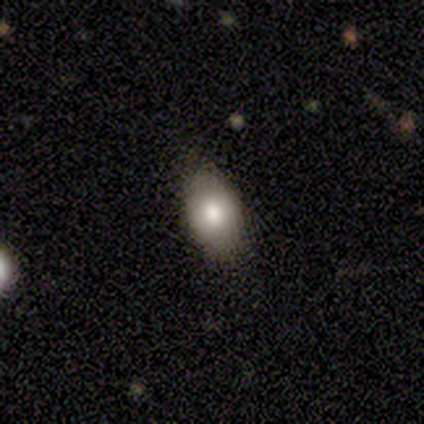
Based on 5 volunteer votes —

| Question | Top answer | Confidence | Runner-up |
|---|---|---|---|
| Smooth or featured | smooth | 60% | featured or disk (20%) |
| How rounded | in between | 100% | — |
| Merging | none | 100% | — |